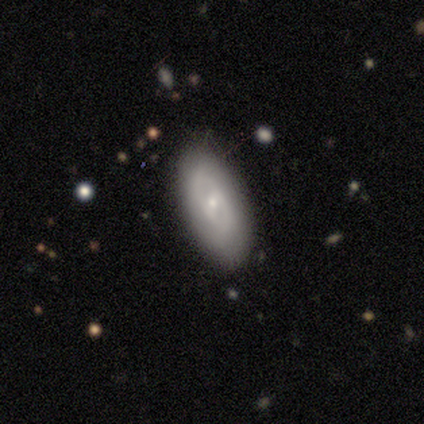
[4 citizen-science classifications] Smooth or featured? 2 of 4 (50%) said featured or disk. Edge-on disk? 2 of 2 (100%) said no. Bar? 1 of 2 (50%, tied with weak) said strong. Spiral arms? 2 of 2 (100%) said yes. Spiral winding? 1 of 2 (50%, tied with medium) said tight. Spiral arm count? 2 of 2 (100%) said 2. Bulge size? 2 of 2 (100%) said moderate. Merging? 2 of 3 (67%) said none.